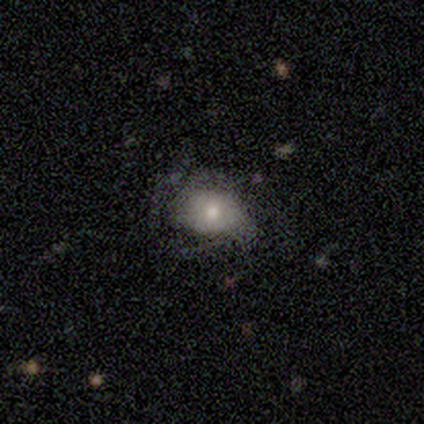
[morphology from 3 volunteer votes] Smooth or featured: smooth — 67% (featured or disk — 33%)
How rounded: round — 50% (tied with in between — 50%)
Merging: none — 67% (major disturbance — 33%)